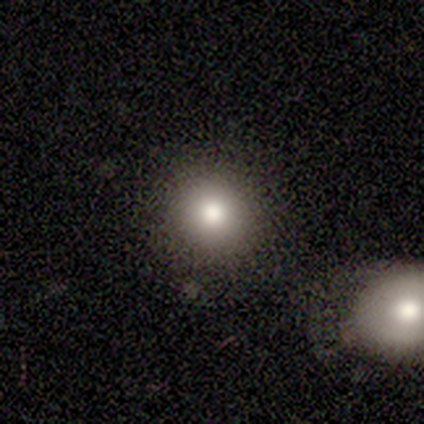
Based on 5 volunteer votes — smooth 80%, star or artifact 20%, featured or disk 0%. Down the decision tree: how rounded — round (100%); merging — none (100%).